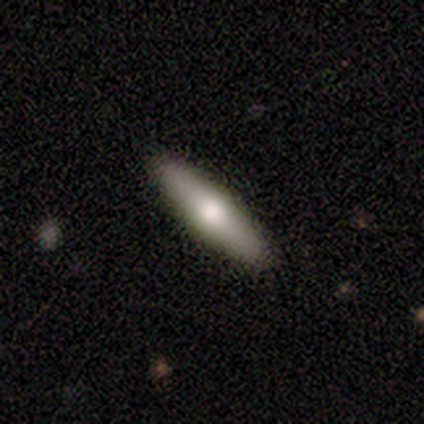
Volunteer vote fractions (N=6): smooth-or-featured: smooth: 67% | featured or disk: 17% | star or artifact: 17%
  how-rounded: cigar-shaped: 100% | round: 0% | in between: 0%
  merging: none: 100% | minor disturbance: 0% | major disturbance: 0% | merger: 0%